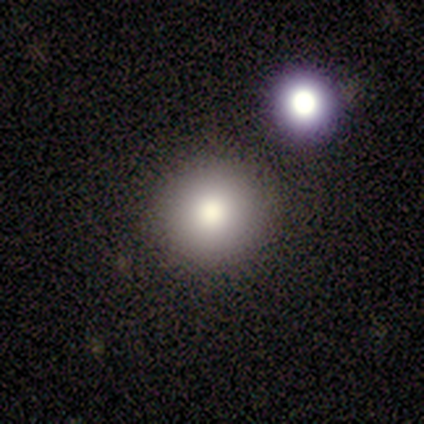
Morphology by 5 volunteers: This is clearly a smooth galaxy (100%). How rounded: clearly round (100%). Merging: clearly none (100%).